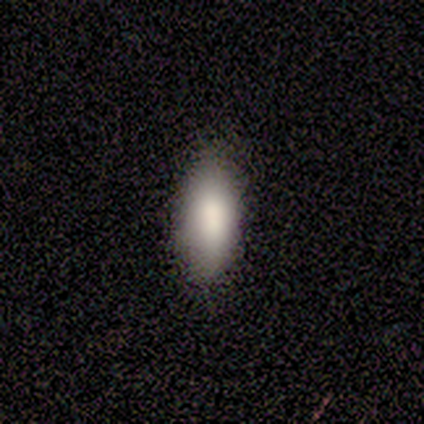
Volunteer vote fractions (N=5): smooth-or-featured: smooth: 100% | featured or disk: 0% | star or artifact: 0%
  how-rounded: in between: 100% | round: 0% | cigar-shaped: 0%
  merging: none: 100% | minor disturbance: 0% | major disturbance: 0% | merger: 0%